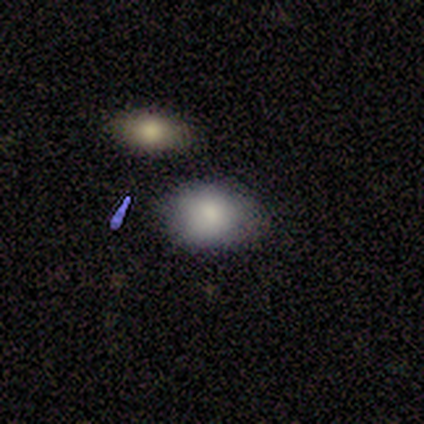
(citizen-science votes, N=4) Smooth or featured? 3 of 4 (75%) said smooth. How rounded? 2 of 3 (67%) said in between. Merging? 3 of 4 (75%) said none.